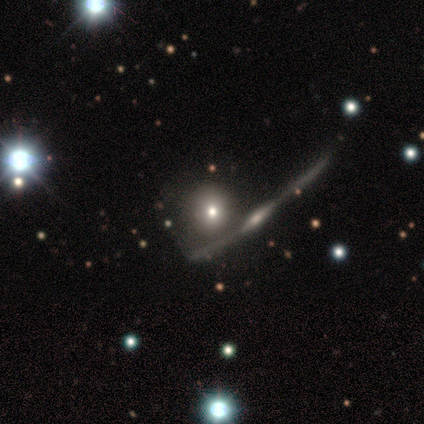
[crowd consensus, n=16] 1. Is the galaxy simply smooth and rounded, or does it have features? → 50% smooth, 31% featured or disk, 19% star or artifact.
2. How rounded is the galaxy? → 75% round, 25% cigar-shaped, 0% in between.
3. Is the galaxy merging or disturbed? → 38% none, 31% merger, 23% minor disturbance, 8% major disturbance.